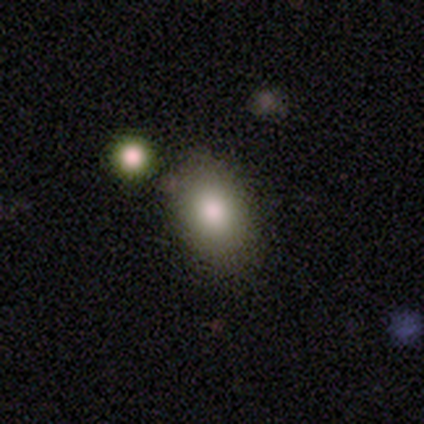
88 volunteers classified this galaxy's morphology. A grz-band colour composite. It shows a smooth galaxy with no disk features (82%) that is in between round and cigar-shaped (78%). Merging: none (76%).